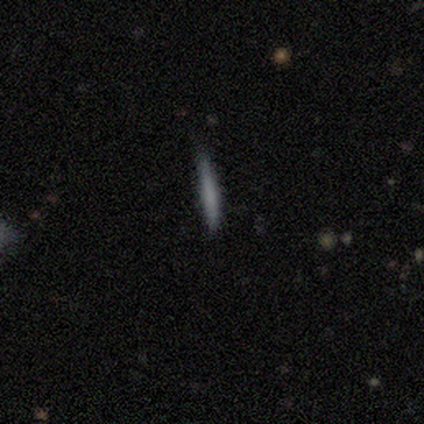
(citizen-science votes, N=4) Smooth or featured? 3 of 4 (75%) said smooth. How rounded? 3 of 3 (100%) said cigar-shaped. Merging? 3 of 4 (75%) said none.